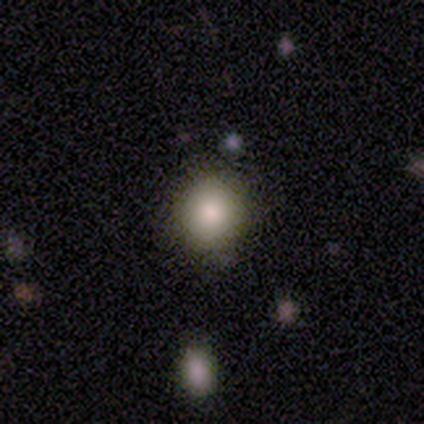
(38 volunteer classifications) Smooth or featured: smooth — 76% (star or artifact — 21%)
How rounded: round — 93% (in between — 7%)
Merging: none — 97% (minor disturbance — 3%)